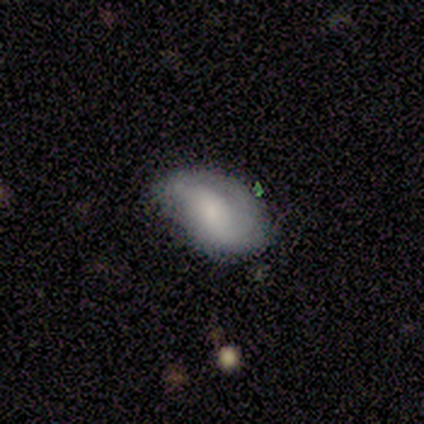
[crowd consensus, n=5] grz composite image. It shows a smooth galaxy with no disk features (60%) that is in between round and cigar-shaped (100%). Merging: minor disturbance (60%).